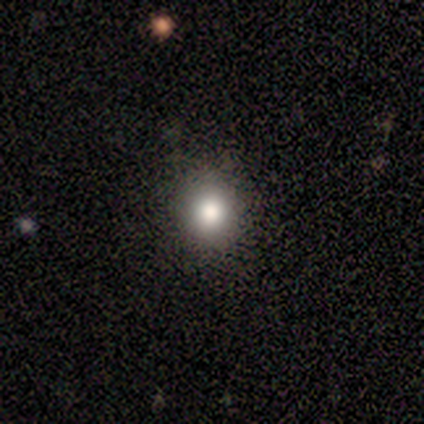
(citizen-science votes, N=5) smooth 80%, star or artifact 20%, featured or disk 0%. Down the decision tree: how rounded — round (100%); merging — none (75%).